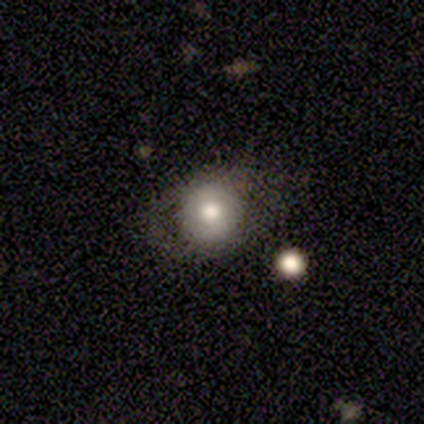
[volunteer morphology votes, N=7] Volunteers were most divided on "smooth or featured": featured or disk: 57%, smooth: 43%, star or artifact: 0%. More confident: edge-on disk — no (100%); bar — no (75%); spiral arms — no (75%); merging — none (71%); bulge size — moderate (50%).